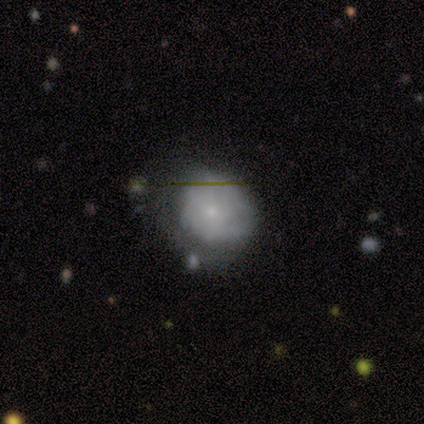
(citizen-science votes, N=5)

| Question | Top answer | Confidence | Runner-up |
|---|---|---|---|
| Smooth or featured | featured or disk | 60% | smooth (20%) |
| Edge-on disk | no | 100% | — |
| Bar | no | 100% | — |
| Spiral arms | no | 67% | yes (33%) |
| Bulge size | small | 100% | — |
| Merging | none | 50% | minor disturbance (25%) |